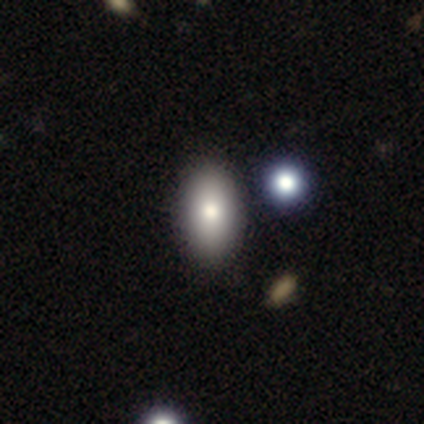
This is clearly a smooth galaxy (100%). How rounded: clearly in between (100%). Merging: likely none (75%).